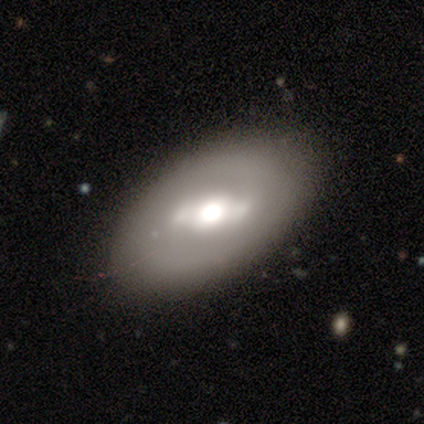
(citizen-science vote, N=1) Consensus on every question: smooth or featured — featured or disk (100%); edge-on disk — no (100%); bar — strong (100%); spiral arms — yes (100%); spiral winding — tight (100%); spiral arm count — 2 (100%); bulge size — large (100%); merging — none (100%).